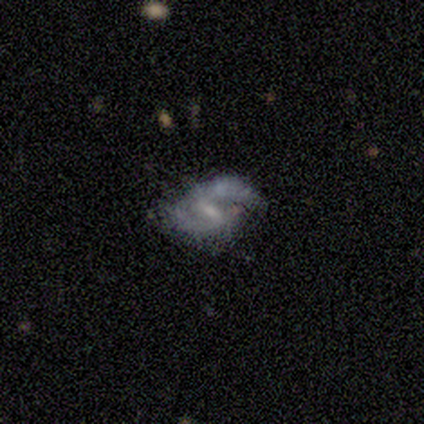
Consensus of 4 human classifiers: Morphology: type=featured or disk (75%); edge-on=no (100%); bar=weak (67%); spiral arms=yes (100%); winding=medium (67%); arm count=2 (67%); bulge=large (33%, tied with moderate and small); merging=none (50%, tied with minor disturbance).